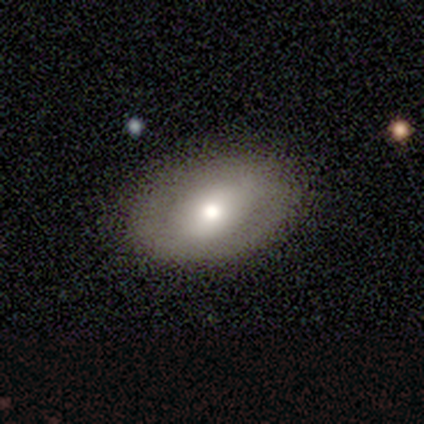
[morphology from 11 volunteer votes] type=smooth (64%); roundness=in between (100%); merging=none (82%).